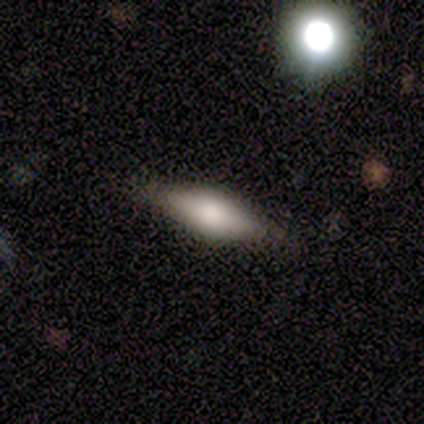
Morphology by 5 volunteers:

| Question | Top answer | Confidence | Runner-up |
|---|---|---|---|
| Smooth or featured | smooth | 40% | tied: star or artifact (40%) |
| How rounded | in between | 50% | tied: cigar-shaped (50%) |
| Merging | none | 100% | — |